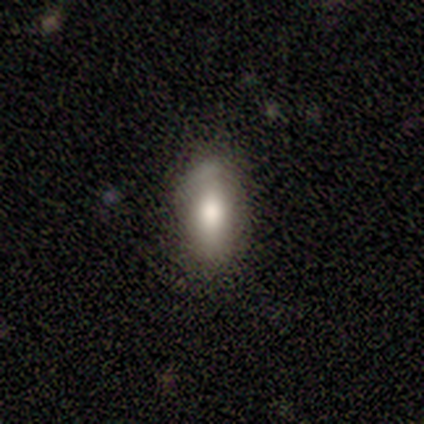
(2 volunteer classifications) Smooth or featured: smooth — 50% (tied with star or artifact — 50%)
How rounded: cigar-shaped — 100%
Merging: none — 100%